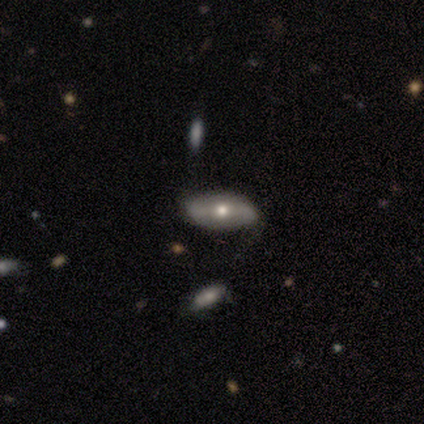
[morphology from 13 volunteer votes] This is likely a smooth galaxy (62%). How rounded: likely in between (75%). Merging: likely none (69%).